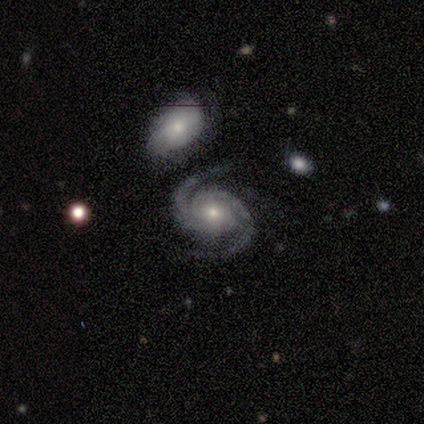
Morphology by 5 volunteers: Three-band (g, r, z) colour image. It shows a featured or disk galaxy (100%) with no bar (75%), 2 (100%) tight (75%) spiral arms (100%) and a small central bulge (100%). Merging: none (80%).